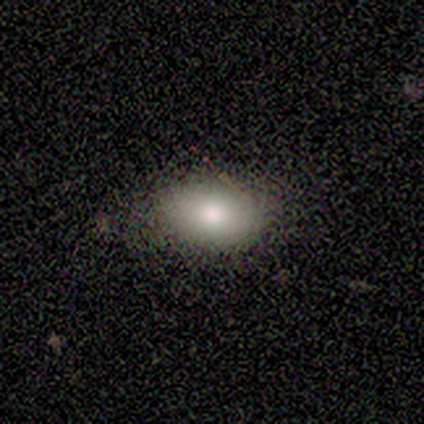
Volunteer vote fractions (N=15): smooth_or_featured: smooth (p=0.87) [alt: featured or disk p=0.13]
how_rounded: in between (p=0.92) [alt: round p=0.08]
merging: none (p=0.80) [alt: minor disturbance p=0.20]